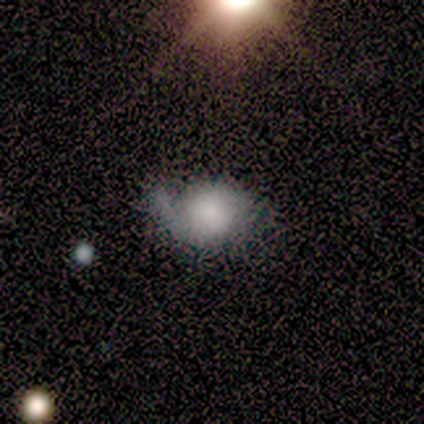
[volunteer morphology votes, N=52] Smooth or featured: featured or disk — 58% (smooth — 37%)
Edge-on disk: no — 97% (yes — 3%)
Bar: no — 86% (weak — 10%)
Spiral arms: yes — 79% (no — 21%)
Spiral winding: medium — 43% (tight — 30%)
Spiral arm count: 2 — 48% (1 — 43%)
Bulge size: small — 31% (moderate — 28%)
Merging: minor disturbance — 45% (none — 33%)